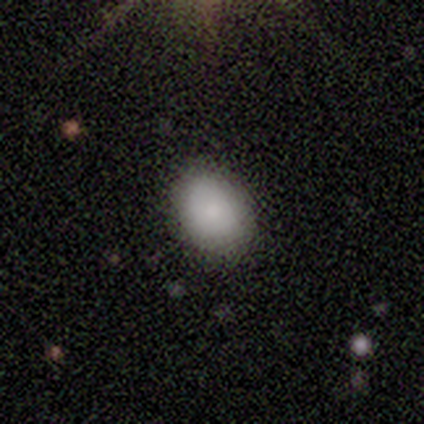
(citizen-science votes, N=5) Smooth or featured? smooth (80%)
How rounded? in between (75%)
Merging? none (75%)